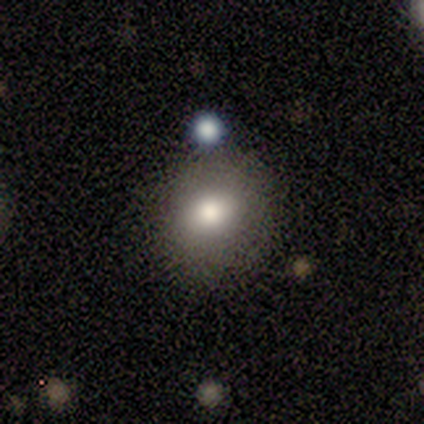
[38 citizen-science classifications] This is likely a smooth galaxy (74%). How rounded: likely round (71%). Merging: likely none (79%).